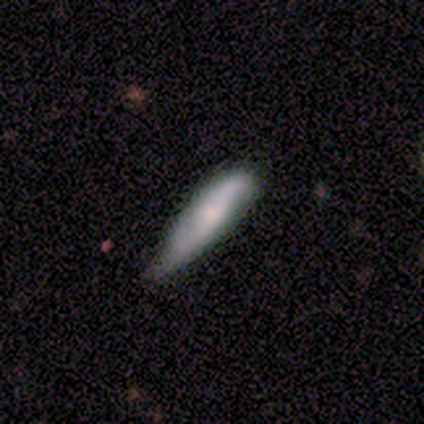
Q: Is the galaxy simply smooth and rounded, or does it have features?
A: smooth — 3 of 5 (60%).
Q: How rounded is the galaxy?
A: cigar-shaped — 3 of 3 (100%).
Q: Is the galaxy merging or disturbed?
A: minor disturbance — 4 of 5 (80%).